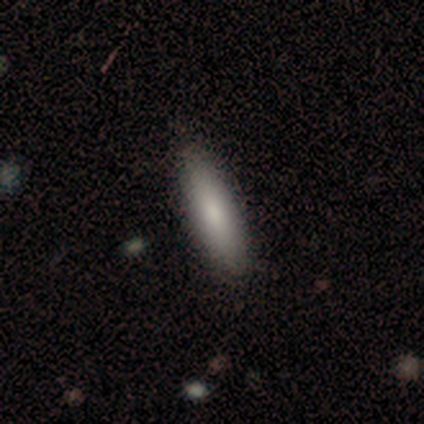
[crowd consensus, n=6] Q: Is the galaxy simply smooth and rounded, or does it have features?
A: smooth — 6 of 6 (100%).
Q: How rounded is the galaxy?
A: cigar-shaped — 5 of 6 (83%).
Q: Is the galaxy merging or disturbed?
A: none — 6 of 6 (100%).